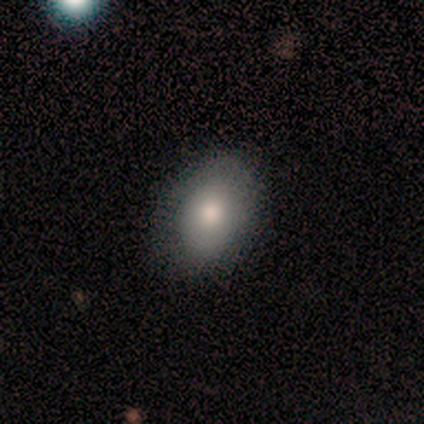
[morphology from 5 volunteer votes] type=smooth (100%); roundness=in between (80%); merging=none (100%).